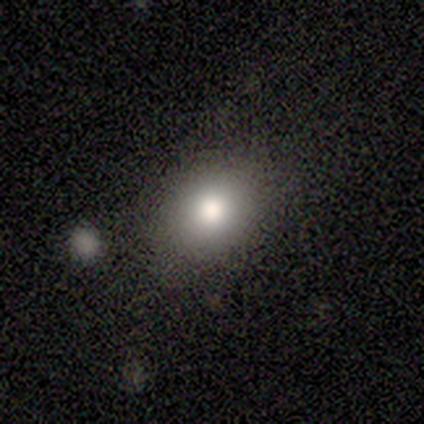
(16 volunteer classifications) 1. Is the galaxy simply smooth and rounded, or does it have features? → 75% smooth, 19% featured or disk, 6% star or artifact.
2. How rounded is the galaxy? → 83% round, 17% in between, 0% cigar-shaped.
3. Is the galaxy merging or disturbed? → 100% none, 0% minor disturbance, 0% major disturbance, 0% merger.